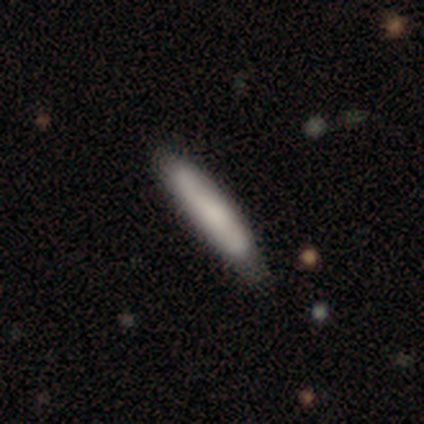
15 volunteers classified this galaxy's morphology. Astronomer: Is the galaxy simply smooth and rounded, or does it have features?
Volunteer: smooth — 87%.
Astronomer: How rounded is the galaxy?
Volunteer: cigar-shaped — 77%.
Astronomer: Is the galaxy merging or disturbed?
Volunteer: none — 73%.